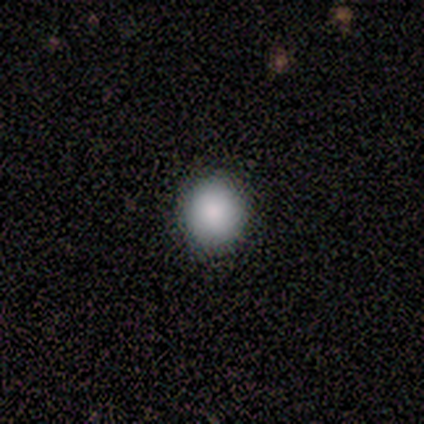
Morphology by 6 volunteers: smooth_or_featured: smooth (p=0.83) [alt: star or artifact p=0.17]
how_rounded: round (p=0.80) [alt: in between p=0.20]
merging: none (p=1.00)